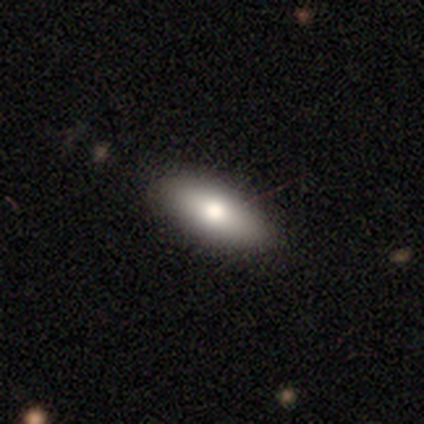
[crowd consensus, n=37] A smooth galaxy with no disk features (86%) that is in between round and cigar-shaped (75%).

Vote fractions:
- Smooth or featured? smooth: 86% / featured or disk: 14% / star or artifact: 0%
- How rounded? in between: 75% / cigar-shaped: 22% / round: 3%
- Merging? none: 86% / minor disturbance: 8% / major disturbance: 5% / merger: 0%